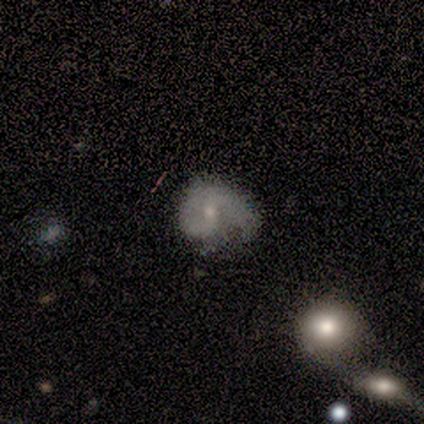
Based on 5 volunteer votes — This is clearly a featured or disk galaxy (80%). It is clearly not viewed edge-on (100%). Bar: likely weak (75%). Spiral arm pattern: clearly yes (100%). Spiral arm count: likely 2 (75%). Spiral winding: possibly medium (50%). Central bulge: likely small (75%). Merging: likely major disturbance (60%).